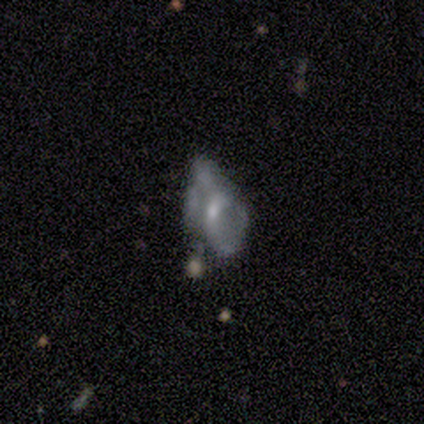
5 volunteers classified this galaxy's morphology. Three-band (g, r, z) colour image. It shows a featured or disk galaxy (80%) with a weak bar (67%), no spiral arms (67%) and a small central bulge (100%). Merging: major disturbance (60%).